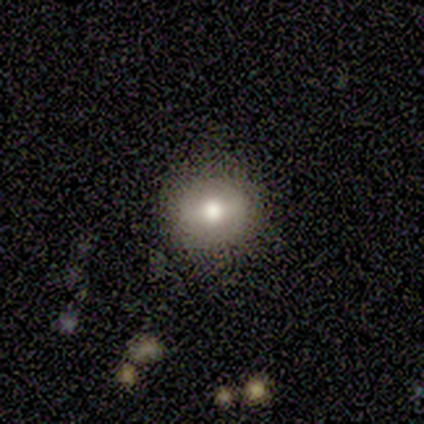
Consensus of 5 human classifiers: Smooth or featured?
  - smooth: 40% * (tied)
  - featured or disk: 40% * (tied)
  - star or artifact: 20%
How rounded?
  - round: 100% *
  - in between: 0%
  - cigar-shaped: 0%
Merging?
  - none: 100% *
  - minor disturbance: 0%
  - major disturbance: 0%
  - merger: 0%